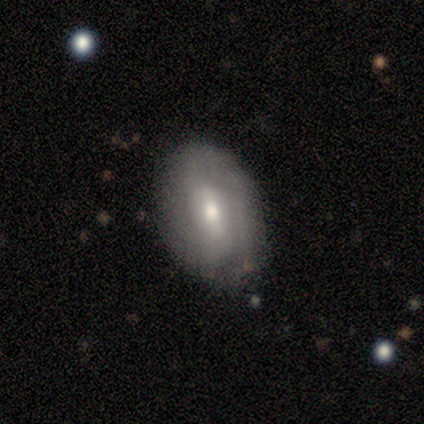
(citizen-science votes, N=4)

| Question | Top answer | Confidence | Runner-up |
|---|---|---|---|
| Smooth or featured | smooth | 50% | tied: featured or disk (50%) |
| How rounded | round | 50% | tied: in between (50%) |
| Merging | none | 100% | — |